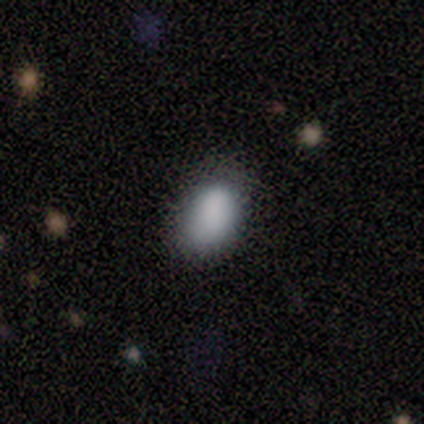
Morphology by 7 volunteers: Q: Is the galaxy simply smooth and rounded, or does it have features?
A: smooth — 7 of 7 (100%).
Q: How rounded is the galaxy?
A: in between — 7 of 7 (100%).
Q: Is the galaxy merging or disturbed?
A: none — 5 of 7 (71%).